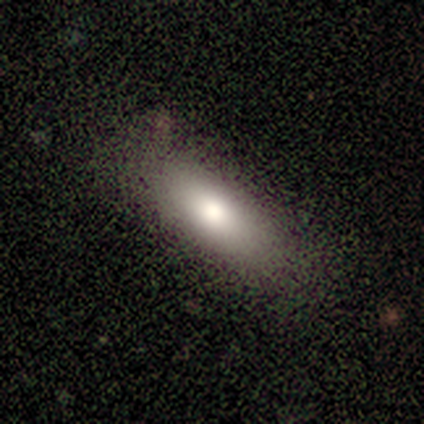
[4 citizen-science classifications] Volunteers were most divided on "merging": merger: 50%, none: 25%, minor disturbance: 25%, major disturbance: 0%. More confident: smooth or featured — smooth (75%); how rounded — in between (67%).